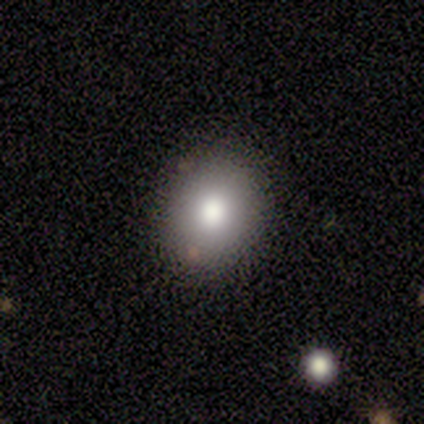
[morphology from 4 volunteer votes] Smooth or featured? smooth (100%)
How rounded? in between (100%)
Merging? none (75%)